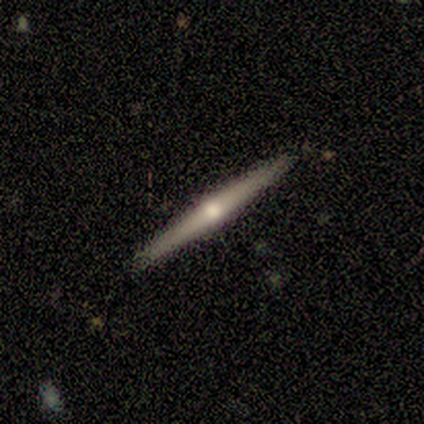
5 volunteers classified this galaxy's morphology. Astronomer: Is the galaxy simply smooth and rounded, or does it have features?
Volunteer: featured or disk — 80%.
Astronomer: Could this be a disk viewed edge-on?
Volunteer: yes — 100%.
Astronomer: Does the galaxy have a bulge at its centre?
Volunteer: none — 50%, tied with rounded at 50%.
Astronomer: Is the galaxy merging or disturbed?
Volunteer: none — 100%.